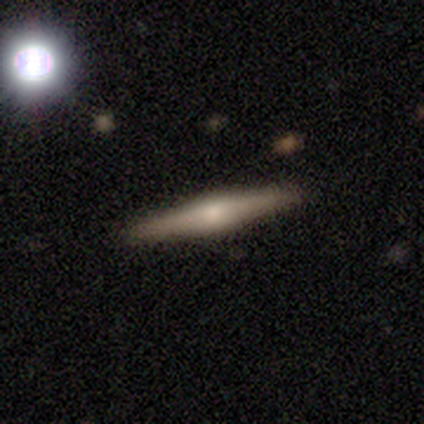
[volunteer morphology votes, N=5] Volunteers were most divided on "smooth or featured": smooth: 60%, featured or disk: 20%, star or artifact: 20%. More confident: how rounded — cigar-shaped (100%); merging — none (75%).